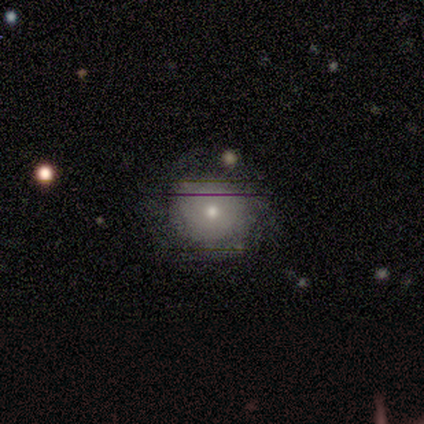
This is clearly a smooth galaxy (89%). How rounded: clearly round (100%). Merging: clearly none (100%).